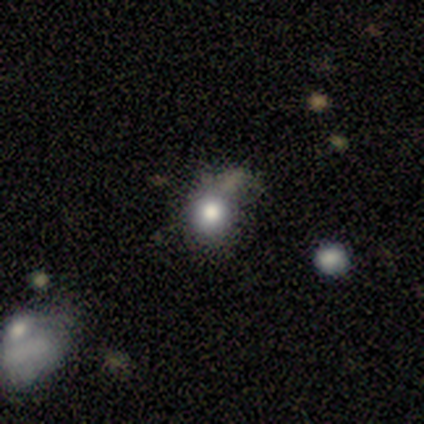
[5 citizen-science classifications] A smooth galaxy with no disk features (80%) that is round (50%, tied with in between). Merging: none (60%).